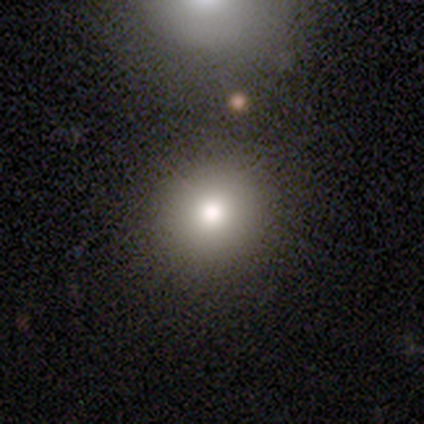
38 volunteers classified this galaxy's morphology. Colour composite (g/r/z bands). It shows a smooth galaxy with no disk features (71%) that is round (96%). Merging: none (89%).